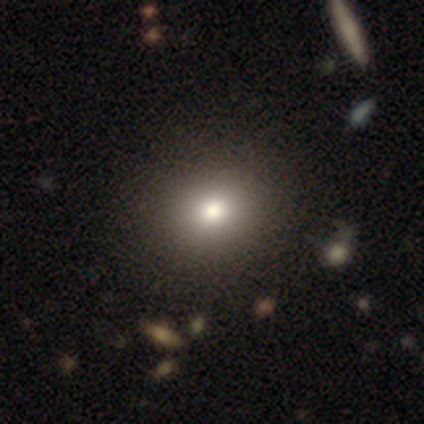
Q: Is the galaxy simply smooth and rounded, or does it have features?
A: smooth — 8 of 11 (73%).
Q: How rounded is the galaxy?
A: round — 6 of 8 (75%).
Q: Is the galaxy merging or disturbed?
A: none — 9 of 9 (100%).